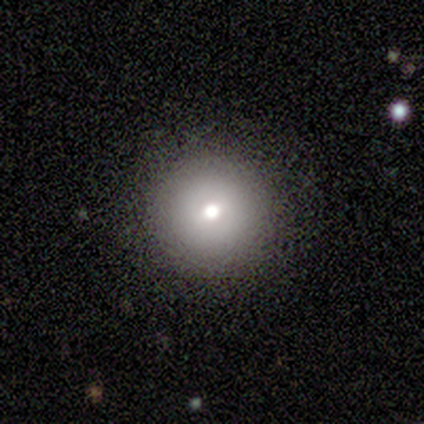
Volunteers were most divided on "smooth or featured": smooth: 60%, featured or disk: 20%, star or artifact: 20%. More confident: how rounded — round (100%); merging — none (75%).